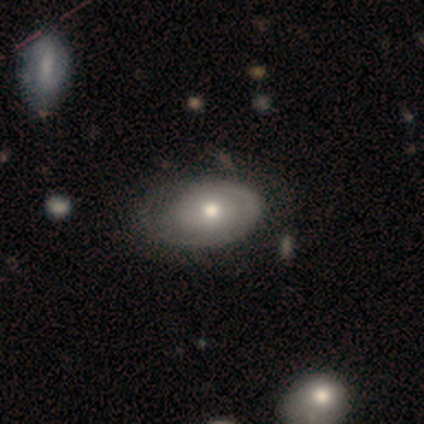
Smooth or featured? featured or disk (62%)
Edge-on disk? no (96%)
Bar? no (96%)
Spiral arms? no (52%)
Bulge size? moderate (70%)
Merging? none (46%)